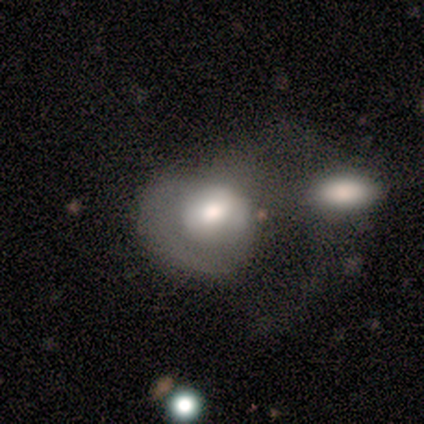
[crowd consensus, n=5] Q: Smooth or featured?
A: smooth (40%); tied with: featured or disk (40%)
Q: How rounded?
A: round (50%); tied with: in between (50%)
Q: Merging?
A: merger (100%)